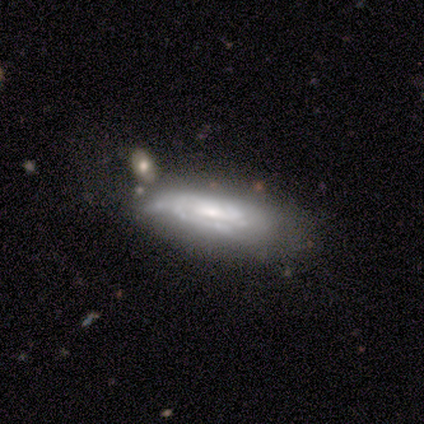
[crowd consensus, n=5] smooth_or_featured: featured or disk (p=0.80) [alt: smooth p=0.20]
disk_edge_on: no (p=0.75) [alt: yes p=0.25]
bar: weak (p=1.00)
has_spiral_arms: yes (p=0.67) [alt: no p=0.33]
spiral_winding: tight (p=1.00)
spiral_arm_count: 2 (p=0.50) [tied with: can't tell p=0.50]
bulge_size: moderate (p=0.67) [alt: small p=0.33]
merging: minor disturbance (p=0.40) [tied with: major disturbance p=0.40]